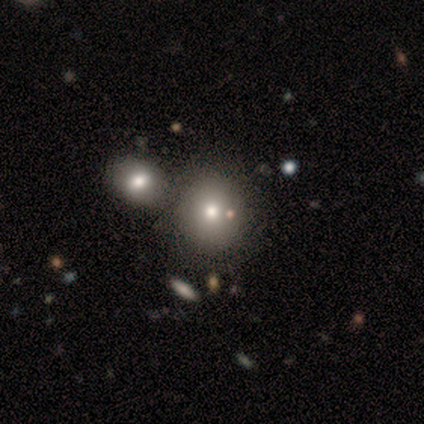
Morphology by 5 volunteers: A smooth galaxy with no disk features (40%, tied with featured or disk) that is round (100%). Merging: none (75%).